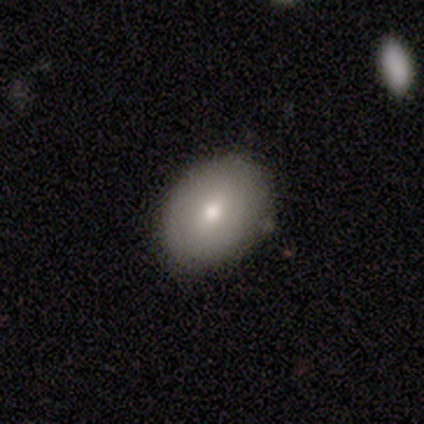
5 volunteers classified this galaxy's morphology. smooth 60%, featured or disk 40%, star or artifact 0%. Down the decision tree: how rounded — in between (67%); merging — none (80%).